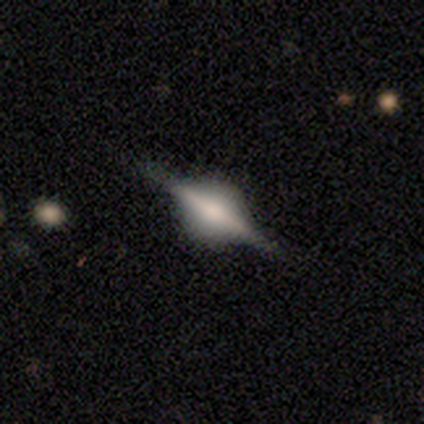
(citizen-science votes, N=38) Smooth or featured? 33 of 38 (87%) said featured or disk. Edge-on disk? 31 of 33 (94%) said yes. Edge-on bulge? 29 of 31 (94%) said rounded. Merging? 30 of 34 (88%) said none.